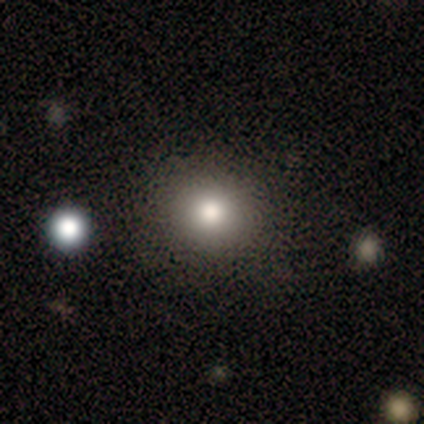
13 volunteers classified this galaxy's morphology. Smooth or featured? smooth (92%)
How rounded? round (83%)
Merging? none (100%)